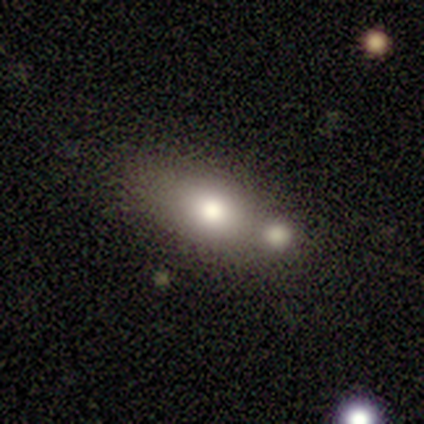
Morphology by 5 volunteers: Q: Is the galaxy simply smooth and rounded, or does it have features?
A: smooth — 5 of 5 (100%).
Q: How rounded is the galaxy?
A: in between — 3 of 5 (60%).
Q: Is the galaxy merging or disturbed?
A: none — 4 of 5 (80%).